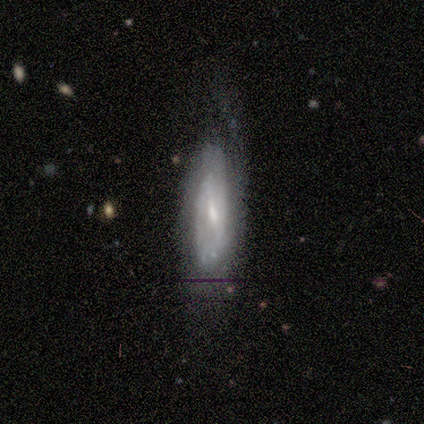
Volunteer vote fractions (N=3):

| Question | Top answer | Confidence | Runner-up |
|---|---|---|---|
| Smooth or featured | featured or disk | 100% | — |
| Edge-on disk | no | 67% | yes (33%) |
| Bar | strong | 50% | tied: weak (50%) |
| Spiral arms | yes | 100% | — |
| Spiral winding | medium | 100% | — |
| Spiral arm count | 2 | 50% | tied: can't tell (50%) |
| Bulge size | moderate | 50% | tied: small (50%) |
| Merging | none | 67% | minor disturbance (33%) |